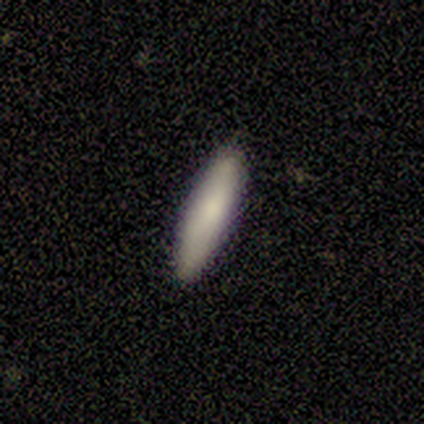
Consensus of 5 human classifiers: Overall: smooth (100%). How rounded: cigar-shaped (100%). Merging: none (80%).